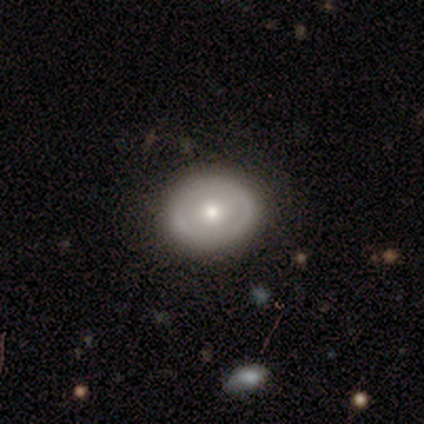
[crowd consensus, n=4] Volunteers were most divided on "bar": no: 67%, weak: 33%, strong: 0%. More confident: edge-on disk — no (100%); spiral arms — no (100%); smooth or featured — featured or disk (75%); merging — none (75%); bulge size — moderate (67%).